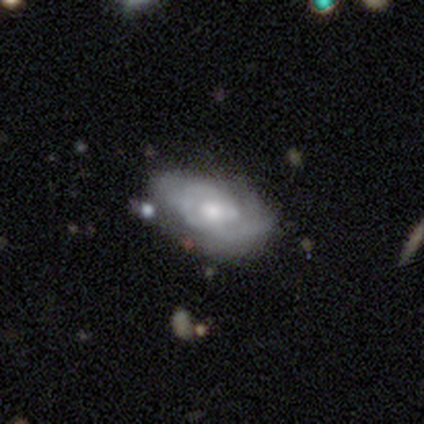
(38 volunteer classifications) This is likely a featured or disk galaxy (66%). It is clearly not viewed edge-on (100%). Bar: clearly no (80%). Spiral arm pattern: clearly yes (88%). Spiral arm count: likely can't tell (64%). Spiral winding: possibly medium (59%). Central bulge: marginally moderate (44%). Merging: likely none (71%).